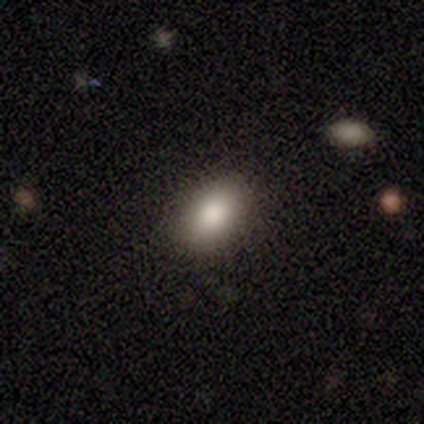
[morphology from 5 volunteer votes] A smooth galaxy with no disk features (80%) that is in between round and cigar-shaped (75%). Merging: none (100%).